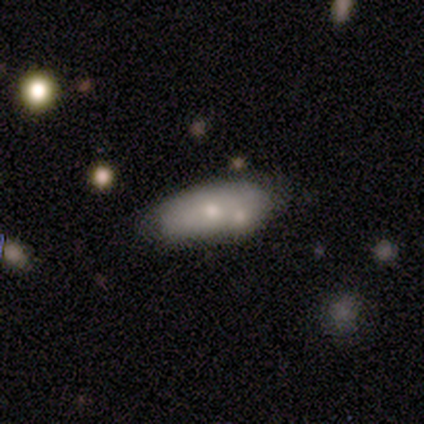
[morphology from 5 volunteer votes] Smooth or featured? smooth (60%)
How rounded? in between (67%)
Merging? none (40%, tied with minor disturbance)